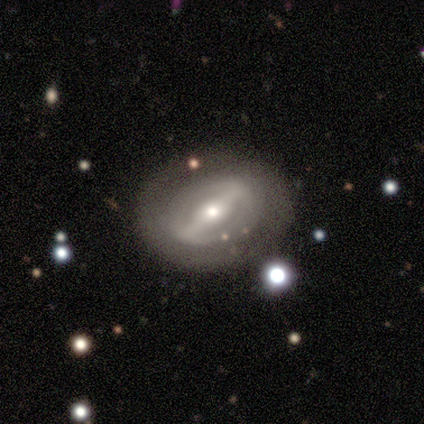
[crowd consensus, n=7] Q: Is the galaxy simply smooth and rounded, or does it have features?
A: featured or disk — 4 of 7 (57%).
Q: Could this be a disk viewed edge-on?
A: no — 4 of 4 (100%).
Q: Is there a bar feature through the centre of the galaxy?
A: strong — 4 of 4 (100%).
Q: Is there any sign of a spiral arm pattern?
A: no — 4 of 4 (100%).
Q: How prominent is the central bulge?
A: small — 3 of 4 (75%).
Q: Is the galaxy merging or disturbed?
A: none — 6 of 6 (100%).